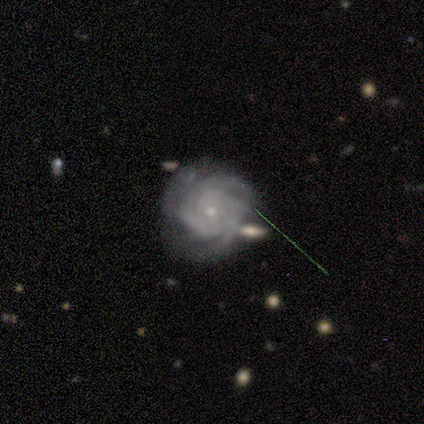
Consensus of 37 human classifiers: Q: Smooth or featured?
A: featured or disk (84%); runner-up: star or artifact (14%)
Q: Edge-on disk?
A: no (97%); runner-up: yes (3%)
Q: Bar?
A: no (70%); runner-up: weak (27%)
Q: Spiral arms?
A: yes (100%)
Q: Spiral winding?
A: tight (80%); runner-up: medium (20%)
Q: Spiral arm count?
A: 3 (33%); runner-up: 4 (27%)
Q: Bulge size?
A: small (83%); runner-up: moderate (17%)
Q: Merging?
A: none (59%); runner-up: minor disturbance (16%)